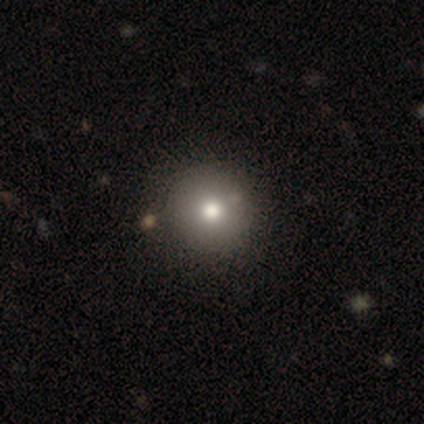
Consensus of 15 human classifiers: This is likely a smooth galaxy (73%). How rounded: clearly round (91%). Merging: clearly none (91%).